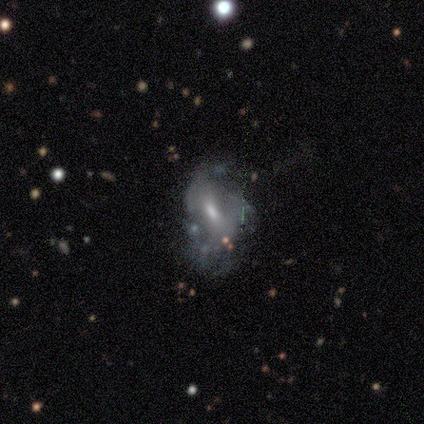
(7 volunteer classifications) Smooth or featured?
  - smooth: 57% *
  - featured or disk: 43%
  - star or artifact: 0%
How rounded?
  - in between: 75% *
  - cigar-shaped: 25%
  - round: 0%
Merging?
  - none: 57% *
  - major disturbance: 29%
  - minor disturbance: 14%
  - merger: 0%